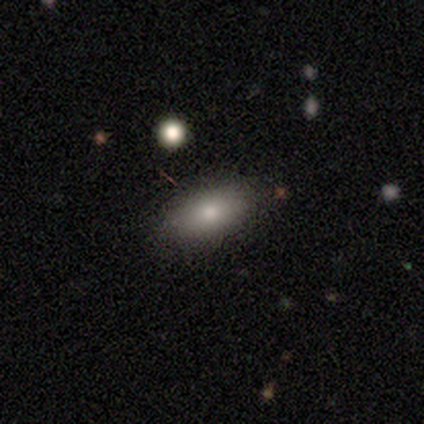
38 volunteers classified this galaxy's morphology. smooth_or_featured: smooth (p=0.74) [alt: featured or disk p=0.13]
how_rounded: in between (p=0.89) [alt: cigar-shaped p=0.07]
merging: none (p=0.88) [alt: minor disturbance p=0.09]